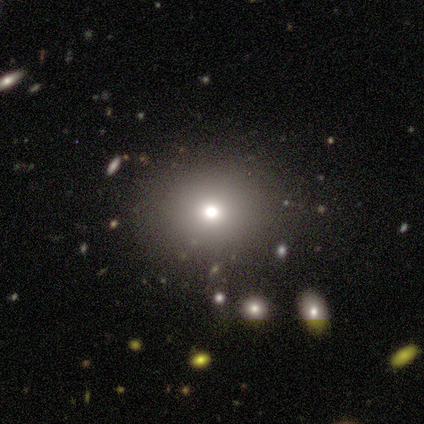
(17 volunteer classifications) Overall: smooth (59%; star or artifact 24%). How rounded: round (80%). Merging: none (69%).